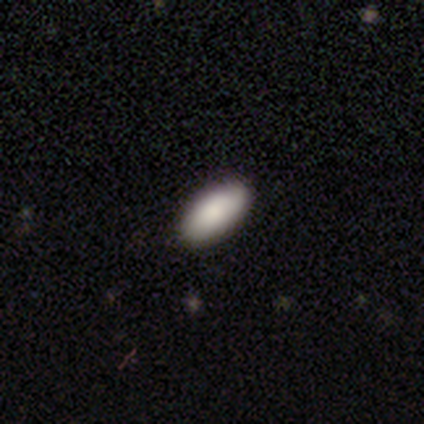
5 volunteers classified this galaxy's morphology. Smooth or featured? smooth (80%)
How rounded? in between (100%)
Merging? none (100%)